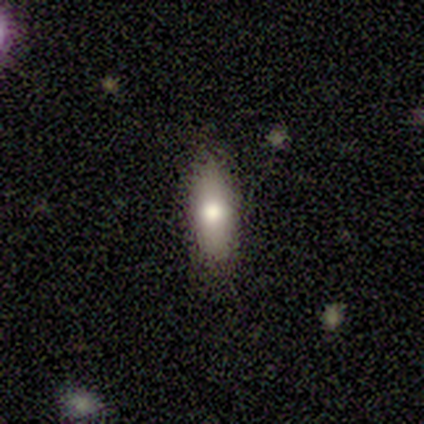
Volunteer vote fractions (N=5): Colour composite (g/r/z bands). It shows a smooth galaxy with no disk features (60%) that is cigar-shaped (67%). Merging: none (60%).